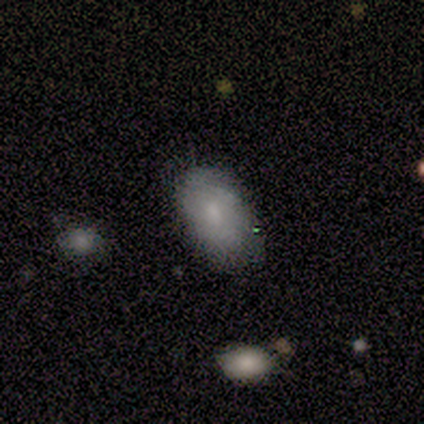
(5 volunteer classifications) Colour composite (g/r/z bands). It shows a smooth galaxy with no disk features (60%) that is in between round and cigar-shaped (100%). Merging: none (75%).